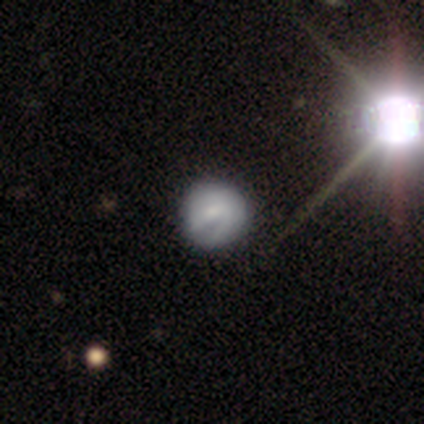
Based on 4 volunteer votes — Smooth or featured? smooth (100%)
How rounded? round (100%)
Merging? none (100%)